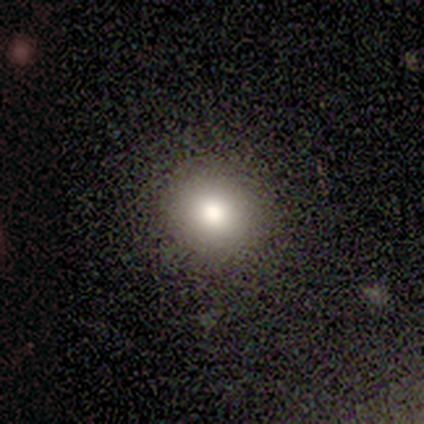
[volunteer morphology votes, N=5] Smooth or featured? 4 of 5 (80%) said smooth. How rounded? 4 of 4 (100%) said round. Merging? 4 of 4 (100%) said none.